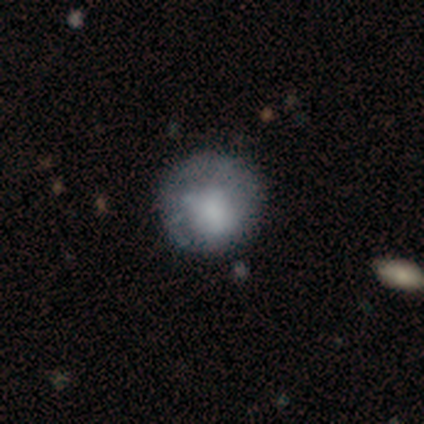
smooth 54%, featured or disk 38%, star or artifact 8%. Down the decision tree: how rounded — round (86%); merging — none (92%).